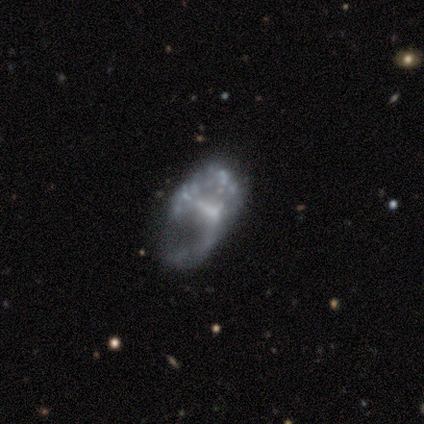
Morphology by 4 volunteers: Smooth or featured?
  - featured or disk: 100% *
  - smooth: 0%
  - star or artifact: 0%
Edge-on disk?
  - no: 100% *
  - yes: 0%
Bar?
  - weak: 50% * (tied)
  - no: 50% * (tied)
  - strong: 0%
Spiral arms?
  - yes: 50% * (tied)
  - no: 50% * (tied)
Spiral winding?
  - tight: 50% * (tied)
  - loose: 50% * (tied)
  - medium: 0%
Spiral arm count?
  - 2: 50% * (tied)
  - can't tell: 50% * (tied)
  - 1: 0%
  - 3: 0%
  - 4: 0%
  - more than 4: 0%
Bulge size?
  - none: 75% *
  - small: 25%
  - dominant: 0%
  - large: 0%
  - moderate: 0%
Merging?
  - none: 50% *
  - minor disturbance: 25%
  - major disturbance: 25%
  - merger: 0%